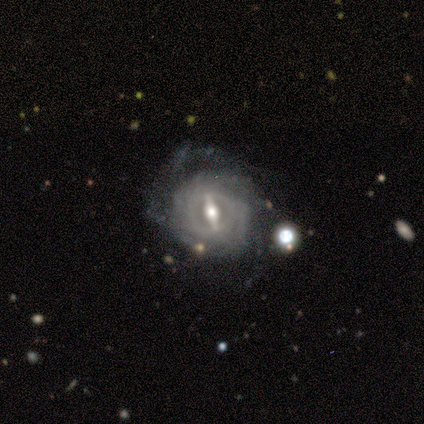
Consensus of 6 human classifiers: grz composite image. It shows a featured or disk galaxy (100%) with a strong bar (83%), 3 (40%) tight (80%) spiral arms (83%) and a moderate central bulge (50%, tied with small). Merging: none (67%).